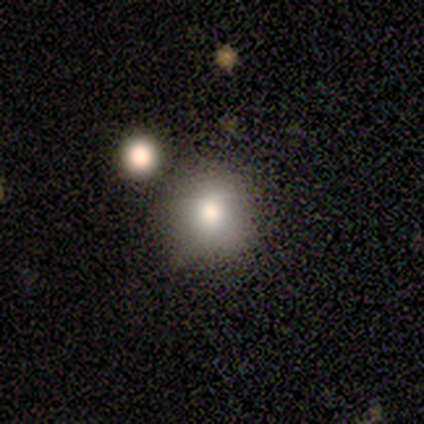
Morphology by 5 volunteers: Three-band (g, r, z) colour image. It shows a smooth galaxy with no disk features (60%) that is round (100%). Merging: none (100%).